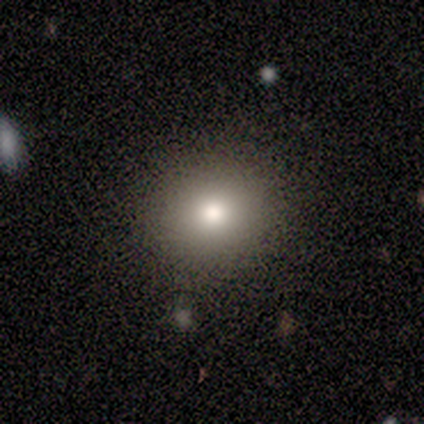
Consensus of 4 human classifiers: Morphology: type=smooth (75%); roundness=round (100%); merging=none (100%).